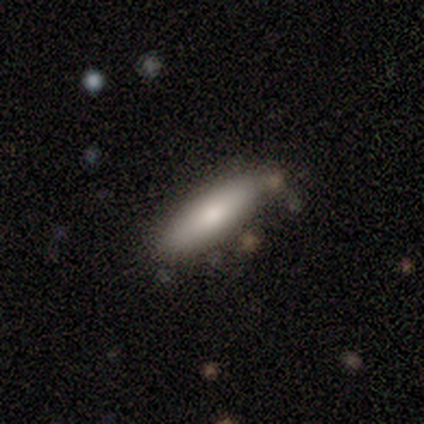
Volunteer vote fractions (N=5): Smooth or featured: smooth — 60% (featured or disk — 40%)
How rounded: cigar-shaped — 67% (in between — 33%)
Merging: none — 60% (minor disturbance — 40%)